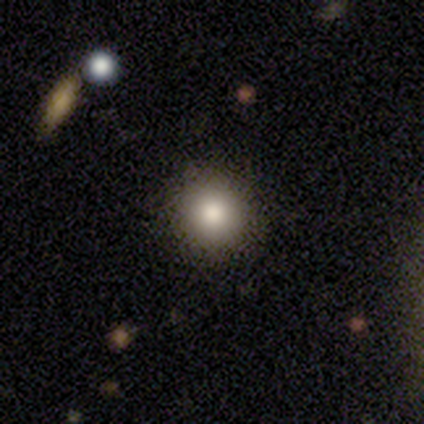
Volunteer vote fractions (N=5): This is clearly a smooth galaxy (100%). How rounded: clearly round (100%). Merging: clearly none (80%).